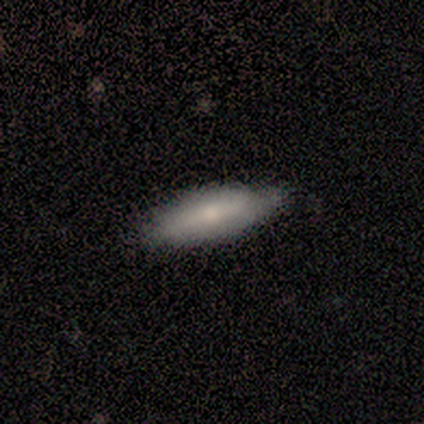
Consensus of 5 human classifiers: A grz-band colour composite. It shows a featured or disk galaxy (60%) viewed edge-on (100%) with a rounded central bulge (67%). Merging: none (80%).